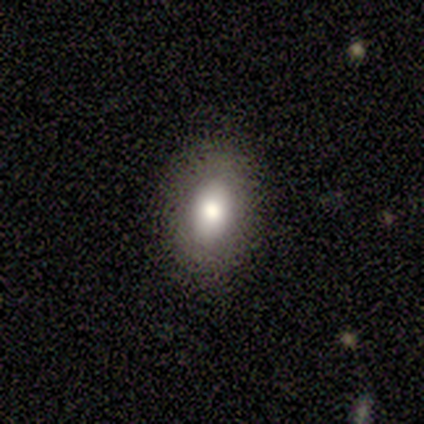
Smooth or featured? 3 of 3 (100%) said smooth. How rounded? 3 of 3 (100%) said in between. Merging? 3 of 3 (100%) said none.